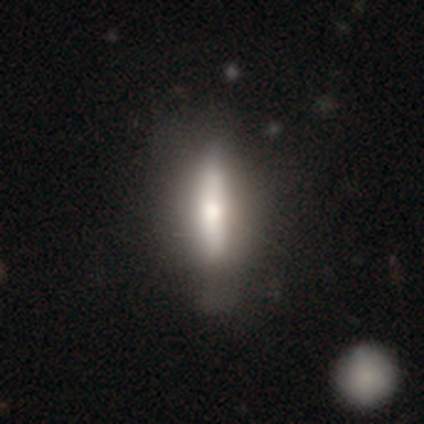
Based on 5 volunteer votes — smooth-or-featured: smooth: 40% (tied) | featured or disk: 40% (tied) | star or artifact: 20%
  how-rounded: in between: 50% (tied) | cigar-shaped: 50% (tied) | round: 0%
  merging: none: 75% | minor disturbance: 25% | major disturbance: 0% | merger: 0%